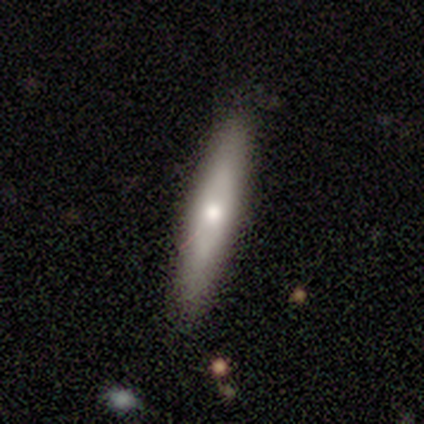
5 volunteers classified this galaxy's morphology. smooth-or-featured: smooth: 80% | featured or disk: 20% | star or artifact: 0%
  how-rounded: cigar-shaped: 75% | in between: 25% | round: 0%
  merging: none: 100% | minor disturbance: 0% | major disturbance: 0% | merger: 0%